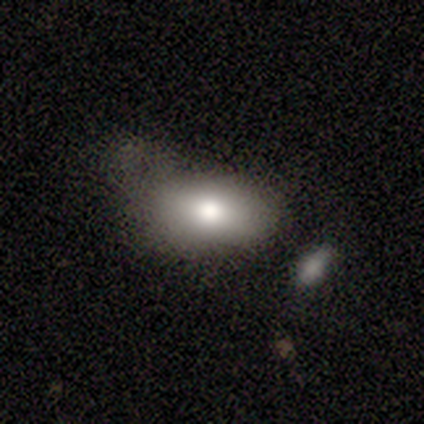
This appears to be a smooth galaxy with no disk features (100%) that is in between round and cigar-shaped (100%). Merging: none (67%).